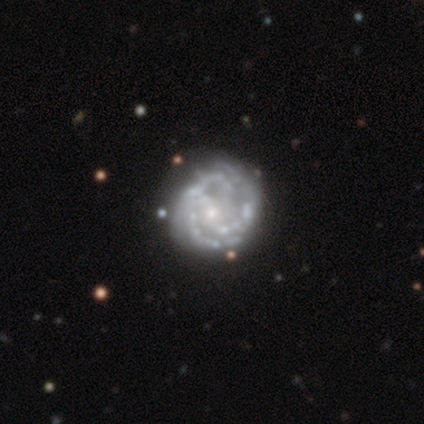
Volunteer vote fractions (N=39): featured or disk 92%, smooth 5%, star or artifact 3%. Down the decision tree: edge-on disk — no (100%); bar — no (67%); spiral arms — yes (75%); spiral arm count — can't tell (41%); spiral winding — tight (52%); bulge size — small (78%); merging — none (39%).